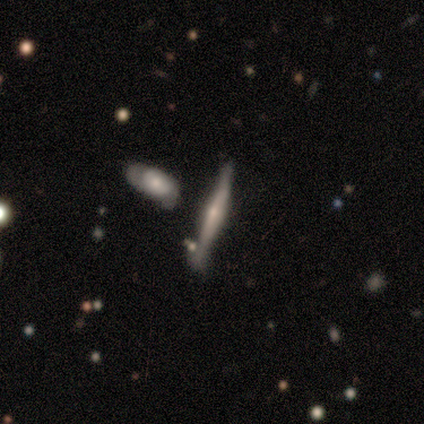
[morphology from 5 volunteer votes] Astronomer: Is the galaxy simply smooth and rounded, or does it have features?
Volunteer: featured or disk — 80%.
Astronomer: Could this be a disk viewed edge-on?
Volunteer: yes — 100%.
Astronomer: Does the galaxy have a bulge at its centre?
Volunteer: rounded — 50%.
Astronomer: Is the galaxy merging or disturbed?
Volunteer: none — 80%.